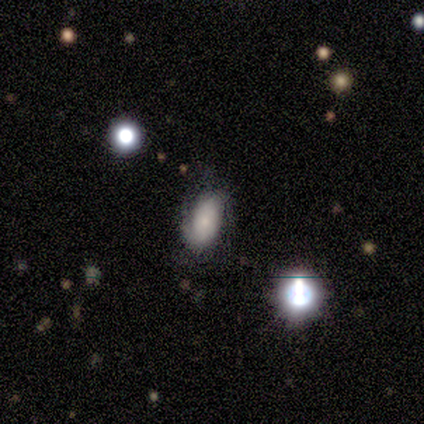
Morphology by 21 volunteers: Q: Smooth or featured?
A: featured or disk (52%); runner-up: star or artifact (29%)
Q: Edge-on disk?
A: no (100%)
Q: Bar?
A: no (45%); runner-up: weak (36%)
Q: Spiral arms?
A: yes (82%); runner-up: no (18%)
Q: Spiral winding?
A: medium (67%); runner-up: tight (22%)
Q: Spiral arm count?
A: 2 (89%); runner-up: can't tell (11%)
Q: Bulge size?
A: small (73%); runner-up: dominant (9%)
Q: Merging?
A: none (47%); tied with: minor disturbance (47%)